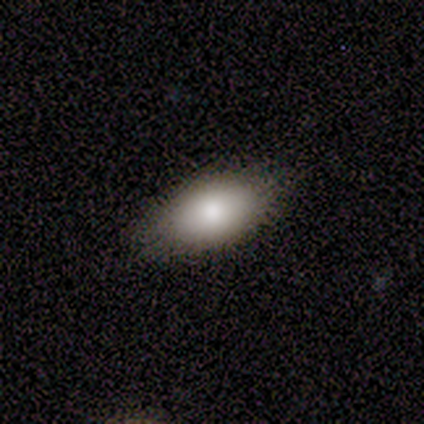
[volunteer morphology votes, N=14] This is clearly a smooth galaxy (100%). How rounded: clearly in between (93%). Merging: likely none (79%).